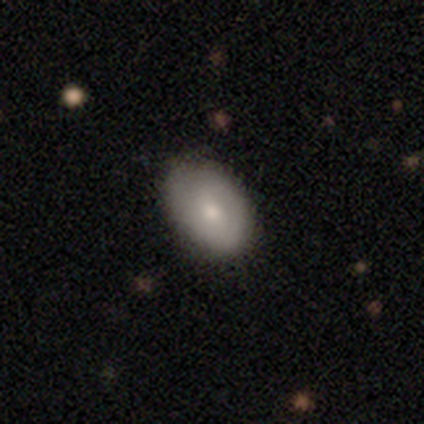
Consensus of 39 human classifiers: A smooth galaxy with no disk features (72%) that is in between round and cigar-shaped (79%). Merging: none (83%).